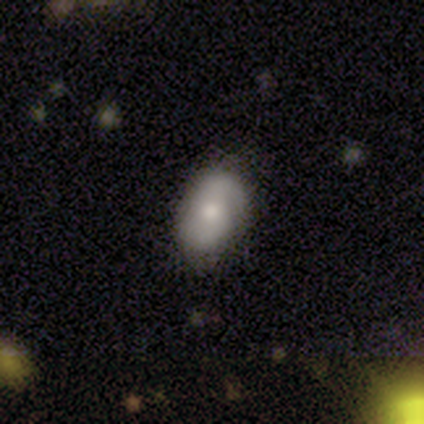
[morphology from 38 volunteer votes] A smooth galaxy with no disk features (53%) that is in between round and cigar-shaped (80%).

Vote fractions:
- Smooth or featured? smooth: 53% / featured or disk: 42% / star or artifact: 5%
- How rounded? in between: 80% / round: 15% / cigar-shaped: 5%
- Merging? none: 72% / minor disturbance: 19% / major disturbance: 8% / merger: 0%